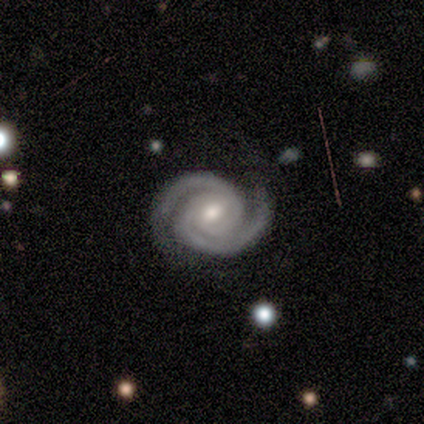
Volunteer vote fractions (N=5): This appears to be a featured or disk galaxy (100%) with a weak bar (40%, tied with no), 2 (80%) tight (80%) spiral arms (100%) and a moderate central bulge (40%, tied with small). Merging: none (80%).